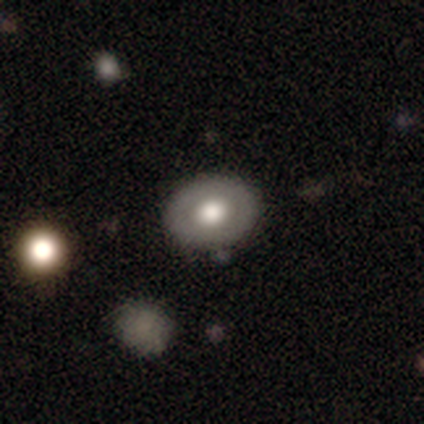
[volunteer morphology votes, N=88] smooth_or_featured: smooth (p=0.58) [alt: featured or disk p=0.35]
how_rounded: in between (p=0.67) [alt: round p=0.33]
merging: none (p=0.83) [alt: minor disturbance p=0.09]